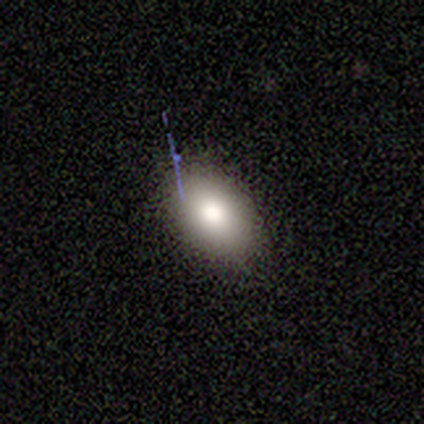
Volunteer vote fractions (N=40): A smooth galaxy with no disk features (80%) that is in between round and cigar-shaped (88%). Merging: none (83%).